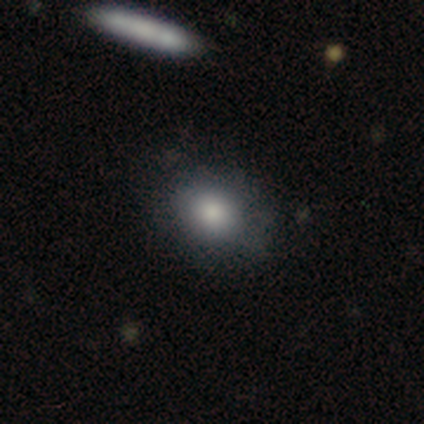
This appears to be a smooth galaxy with no disk features (77%) that is round (67%). Merging: none (77%).